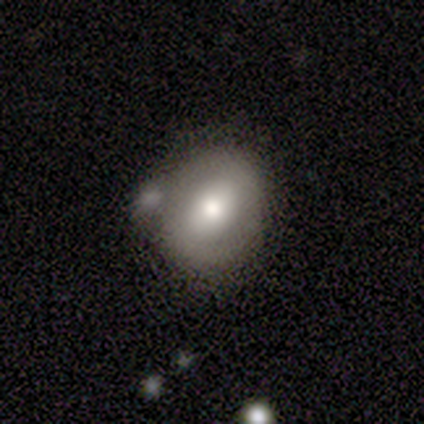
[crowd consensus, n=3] Morphology: type=smooth (100%); roundness=in between (100%); merging=none (67%).